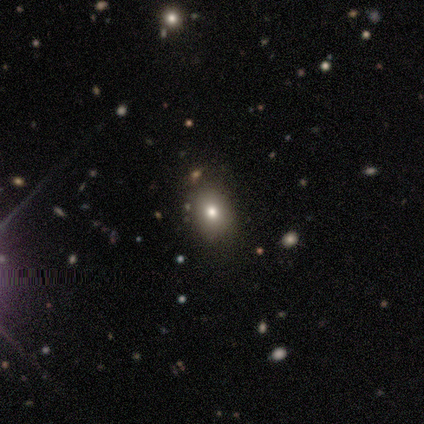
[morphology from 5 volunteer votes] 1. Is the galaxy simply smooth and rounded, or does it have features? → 60% smooth, 40% star or artifact, 0% featured or disk.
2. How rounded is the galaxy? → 100% round, 0% in between, 0% cigar-shaped.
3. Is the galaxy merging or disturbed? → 100% none, 0% minor disturbance, 0% major disturbance, 0% merger.